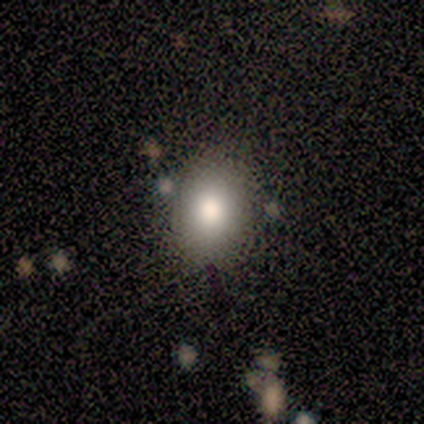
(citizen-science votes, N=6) smooth_or_featured: smooth (p=1.00)
how_rounded: round (p=0.67) [alt: in between p=0.33]
merging: none (p=1.00)